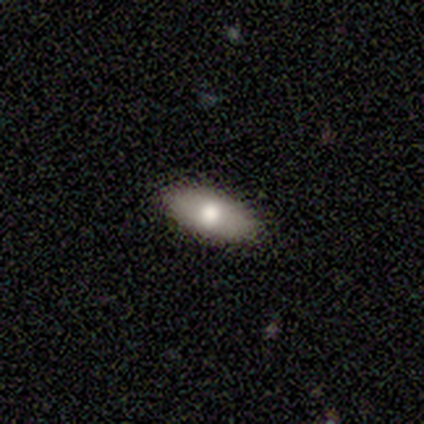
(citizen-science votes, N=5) Smooth or featured? 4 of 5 (80%) said smooth. How rounded? 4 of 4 (100%) said in between. Merging? 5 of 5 (100%) said none.